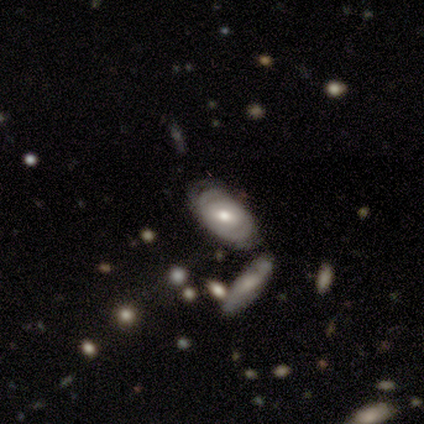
This appears to be a featured or disk galaxy (100%) with no bar (67%), tight (50%, tied with loose) spiral arms (67%) and a moderate central bulge (67%). Merging: none (60%).